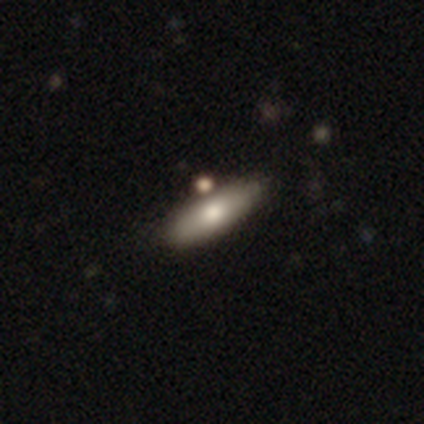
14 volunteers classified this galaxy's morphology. This is clearly a smooth galaxy (86%). How rounded: possibly cigar-shaped (58%). Merging: clearly none (85%).